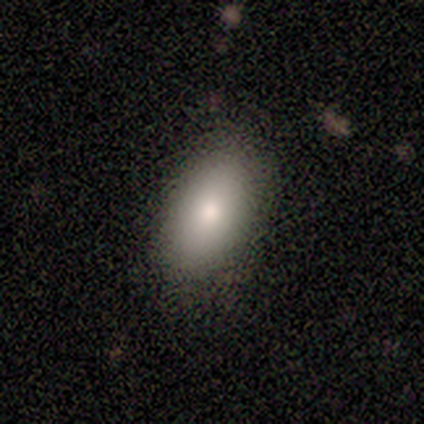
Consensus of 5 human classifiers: Smooth or featured? smooth (100%)
How rounded? in between (100%)
Merging? none (80%)